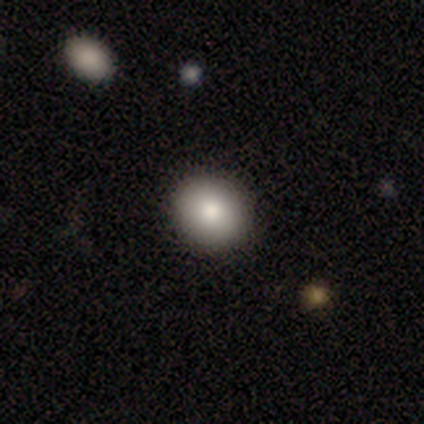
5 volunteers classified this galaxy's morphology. type=smooth (80%); roundness=round (75%); merging=none (100%).